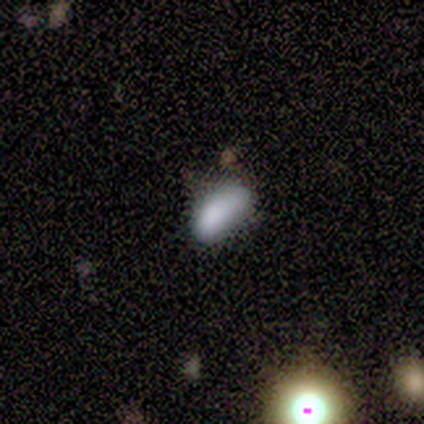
Overall: smooth (80%). How rounded: in between (100%). Merging: none (40%, tied with minor disturbance).